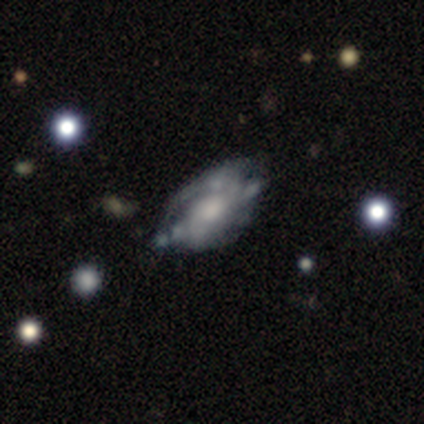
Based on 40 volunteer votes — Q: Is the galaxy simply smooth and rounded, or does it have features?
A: featured or disk — 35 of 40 (88%).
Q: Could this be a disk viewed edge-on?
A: no — 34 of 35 (97%).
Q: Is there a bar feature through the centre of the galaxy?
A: no — 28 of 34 (82%).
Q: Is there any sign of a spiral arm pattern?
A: yes — 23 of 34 (68%).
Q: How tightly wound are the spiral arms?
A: tight — 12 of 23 (52%).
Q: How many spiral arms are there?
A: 2 — 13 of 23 (57%).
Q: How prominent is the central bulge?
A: moderate — 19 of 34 (56%).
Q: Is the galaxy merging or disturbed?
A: none — 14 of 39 (36%).